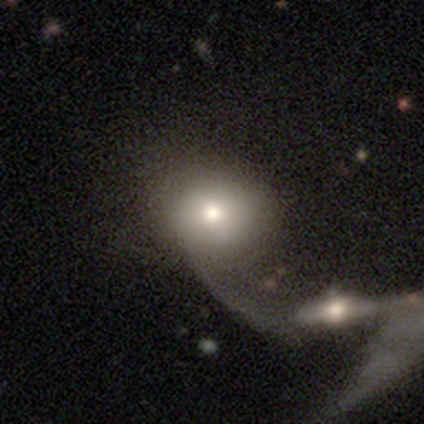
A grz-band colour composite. It shows a smooth galaxy with no disk features (80%) that is round (100%). Merging: major disturbance (40%, tied with merger).